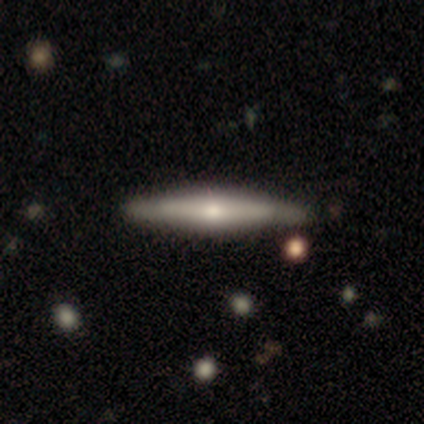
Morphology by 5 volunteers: Volunteers were most divided on "smooth or featured": featured or disk: 60%, smooth: 40%, star or artifact: 0%. More confident: edge-on disk — yes (100%); edge-on bulge — rounded (100%); merging — none (80%).